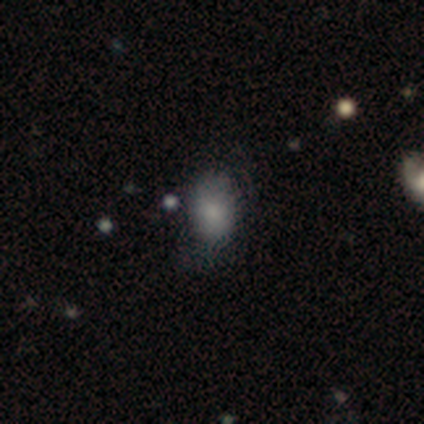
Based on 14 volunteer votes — A smooth galaxy with no disk features (86%) that is in between round and cigar-shaped (75%).

Vote fractions:
- Smooth or featured? smooth: 86% / featured or disk: 7% / star or artifact: 7%
- How rounded? in between: 75% / round: 25% / cigar-shaped: 0%
- Merging? minor disturbance: 54% / none: 31% / major disturbance: 15% / merger: 0%